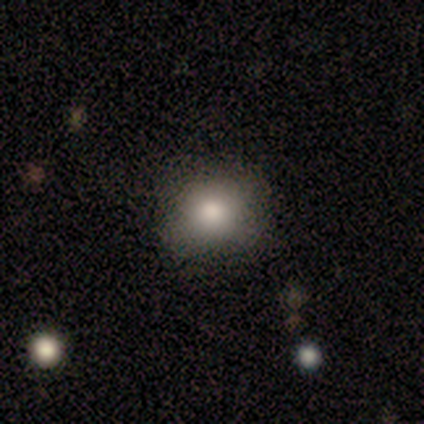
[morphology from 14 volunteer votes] Q: Smooth or featured?
A: smooth (71%); runner-up: star or artifact (21%)
Q: How rounded?
A: round (60%); runner-up: in between (40%)
Q: Merging?
A: none (91%); runner-up: minor disturbance (9%)